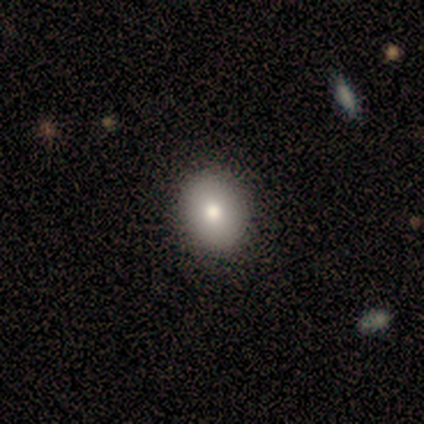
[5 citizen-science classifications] Volunteers were most divided on "smooth or featured": smooth: 60%, featured or disk: 40%, star or artifact: 0%. More confident: merging — none (100%); how rounded — round (67%).